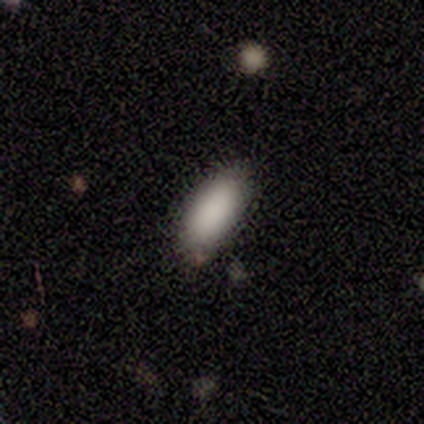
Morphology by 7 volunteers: smooth_or_featured: smooth (p=1.00)
how_rounded: in between (p=0.86) [alt: cigar-shaped p=0.14]
merging: none (p=0.86) [alt: minor disturbance p=0.14]